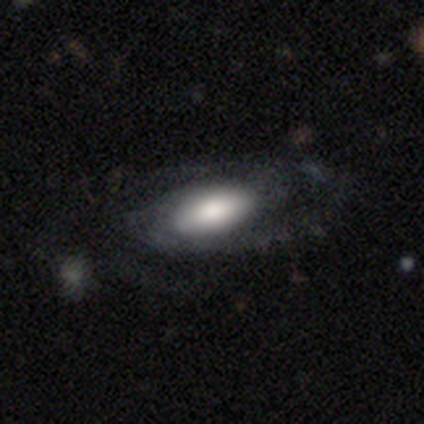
Q: Smooth or featured?
A: featured or disk (86%); runner-up: smooth (14%)
Q: Edge-on disk?
A: no (100%)
Q: Bar?
A: no (67%); runner-up: weak (33%)
Q: Spiral arms?
A: yes (75%); runner-up: no (25%)
Q: Spiral winding?
A: medium (56%); runner-up: loose (33%)
Q: Spiral arm count?
A: 2 (56%); runner-up: can't tell (33%)
Q: Bulge size?
A: large (58%); runner-up: moderate (25%)
Q: Merging?
A: none (79%); runner-up: minor disturbance (21%)